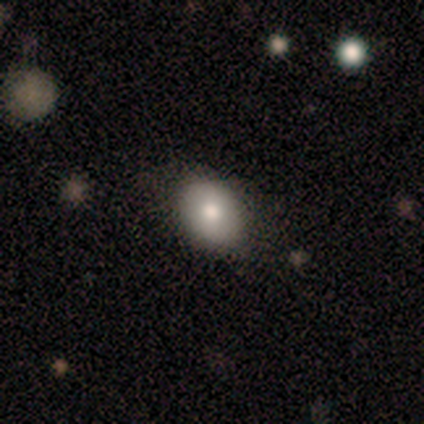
Smooth or featured?
  - smooth: 60% *
  - featured or disk: 20%
  - star or artifact: 20%
How rounded?
  - in between: 100% *
  - round: 0%
  - cigar-shaped: 0%
Merging?
  - none: 50% * (tied)
  - minor disturbance: 50% * (tied)
  - major disturbance: 0%
  - merger: 0%